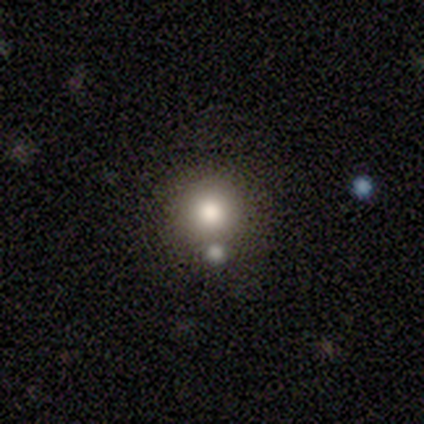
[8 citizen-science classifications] This appears to be a smooth galaxy with no disk features (75%) that is round (100%). Merging: none (71%).